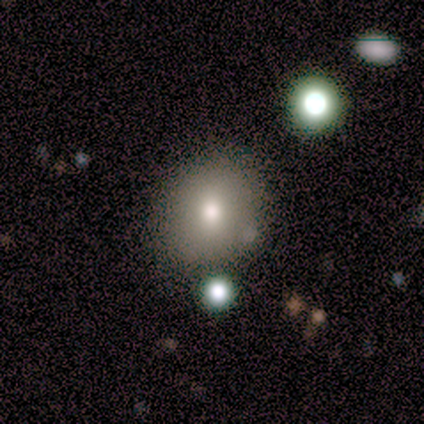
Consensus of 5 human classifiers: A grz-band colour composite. It shows a smooth galaxy with no disk features (100%) that is in between round and cigar-shaped (60%). Merging: none (80%).